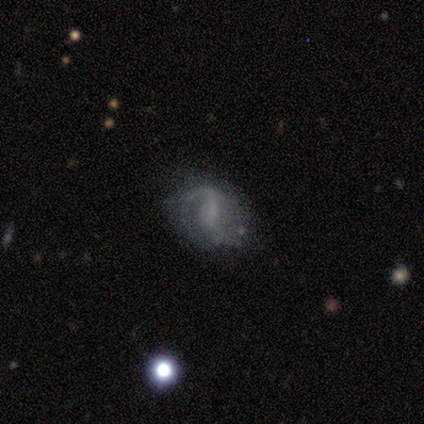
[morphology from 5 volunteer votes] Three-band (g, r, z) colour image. It shows a featured or disk galaxy (80%) with no bar (75%), 2 (67%) loose (100%) spiral arms (75%) and no central bulge (50%). Merging: none (100%).